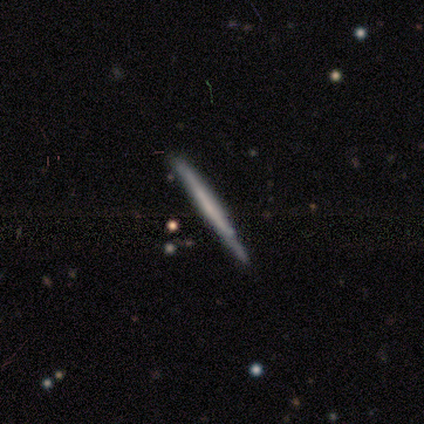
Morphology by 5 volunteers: A featured or disk galaxy (80%) viewed edge-on (100%) with no central bulge (75%). Merging: none (100%).